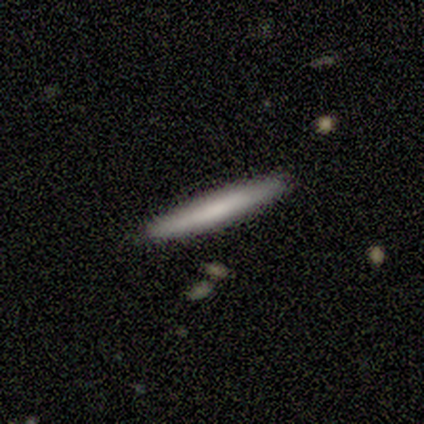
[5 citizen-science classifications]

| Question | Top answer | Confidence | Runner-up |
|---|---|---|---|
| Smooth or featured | smooth | 80% | featured or disk (20%) |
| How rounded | cigar-shaped | 100% | — |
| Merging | none | 80% | minor disturbance (20%) |